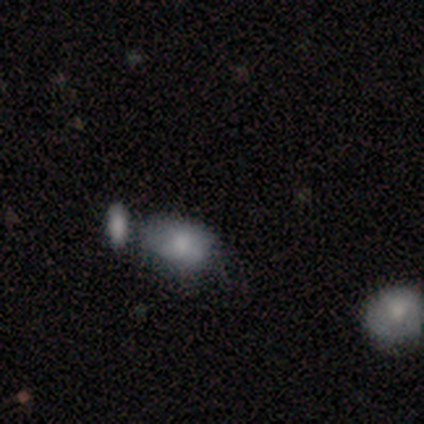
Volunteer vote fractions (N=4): Overall: smooth (75%). How rounded: in between (100%). Merging: none (50%; minor disturbance 25%).